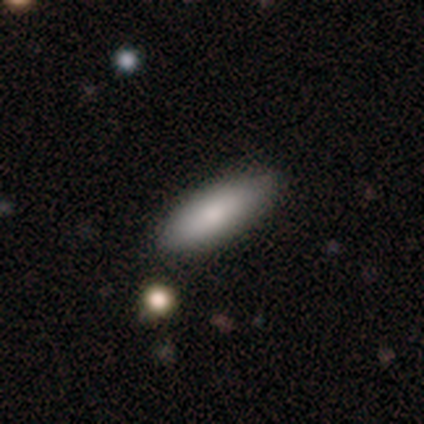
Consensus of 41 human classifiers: Morphology: type=smooth (80%); roundness=in between (70%); merging=none (92%).